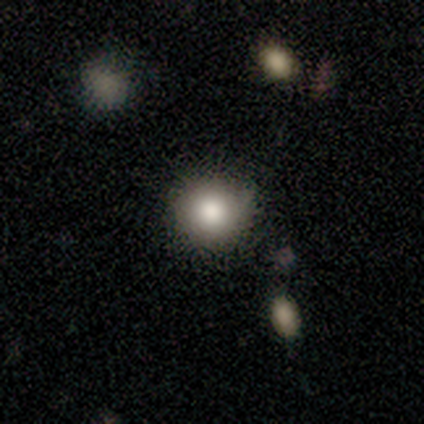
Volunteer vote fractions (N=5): Overall: smooth (60%; featured or disk 20%). How rounded: round (100%). Merging: none (50%, tied with minor disturbance).